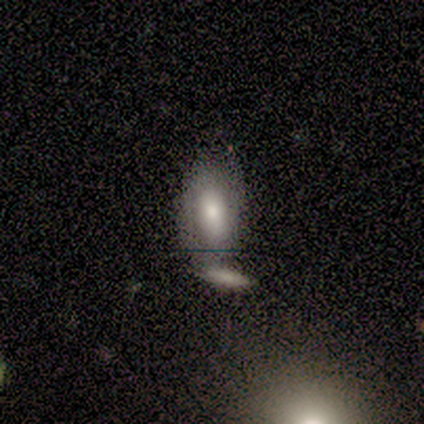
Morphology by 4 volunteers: Overall: featured or disk (50%; smooth 25%). Edge-on disk: yes (50%, tied with no). Edge-on bulge: rounded (100%). Merging: none (33%, tied with minor disturbance and merger).